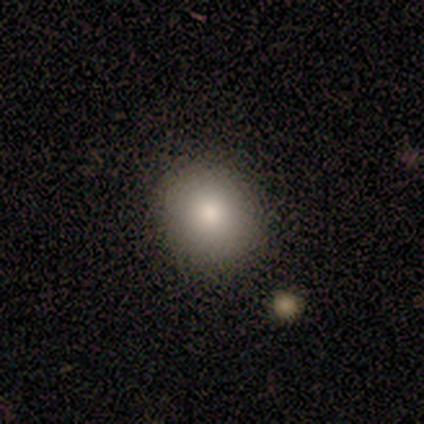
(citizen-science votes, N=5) Smooth or featured: smooth — 100%
How rounded: round — 60% (in between — 40%)
Merging: none — 80% (minor disturbance — 20%)